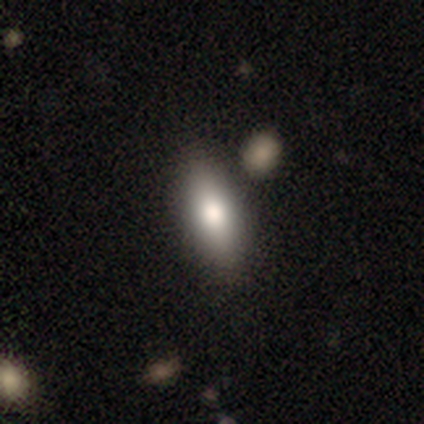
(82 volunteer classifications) Smooth or featured? smooth (76%)
How rounded? in between (63%)
Merging? none (79%)